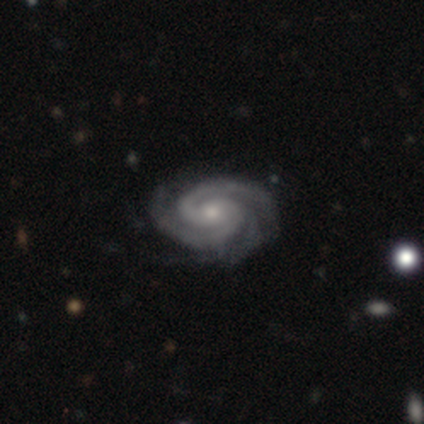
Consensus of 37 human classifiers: featured or disk 95%, star or artifact 5%, smooth 0%. Down the decision tree: edge-on disk — no (100%); bar — no (74%); spiral arms — yes (100%); spiral arm count — 2 (57%); spiral winding — tight (80%); bulge size — small (54%); merging — none (71%).